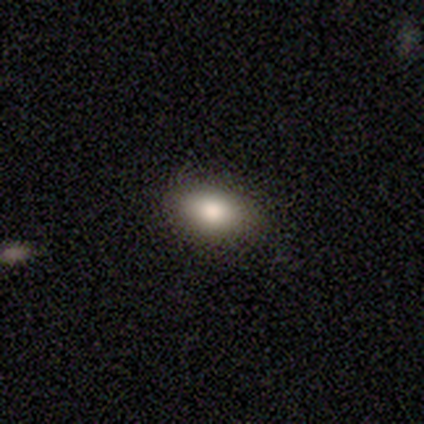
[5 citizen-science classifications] smooth 100%, featured or disk 0%, star or artifact 0%. Down the decision tree: how rounded — in between (100%); merging — none (80%).